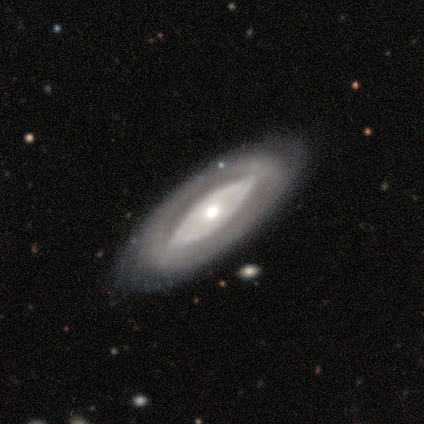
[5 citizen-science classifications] Smooth or featured? featured or disk (100%)
Edge-on disk? no (80%)
Bar? no (75%)
Spiral arms? no (75%)
Bulge size? large (75%)
Merging? none (100%)